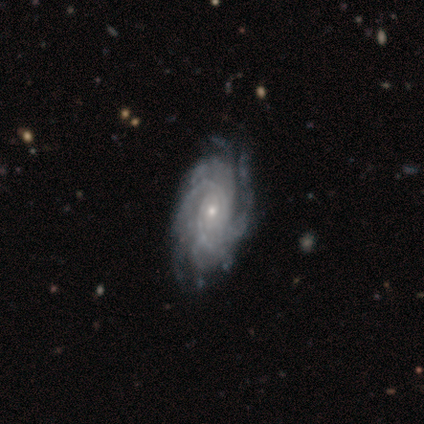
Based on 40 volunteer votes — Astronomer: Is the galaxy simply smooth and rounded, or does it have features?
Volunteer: featured or disk — 90%.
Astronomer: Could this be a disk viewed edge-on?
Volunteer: no — 100%.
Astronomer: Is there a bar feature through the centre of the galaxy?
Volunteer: no — 69%.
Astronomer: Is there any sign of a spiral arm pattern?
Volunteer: yes — 97%.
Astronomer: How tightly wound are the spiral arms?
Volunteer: tight — 69%.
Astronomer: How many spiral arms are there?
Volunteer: can't tell — 31% (runner-up: more than 4, 23%).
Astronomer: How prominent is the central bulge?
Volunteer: small — 83%.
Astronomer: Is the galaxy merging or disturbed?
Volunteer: none — 50%.